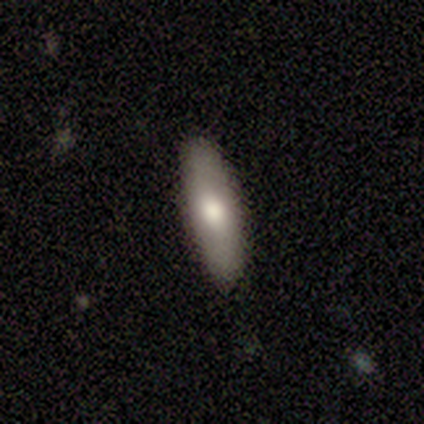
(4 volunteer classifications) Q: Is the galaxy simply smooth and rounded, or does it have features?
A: smooth — 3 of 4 (75%).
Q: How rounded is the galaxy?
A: cigar-shaped — 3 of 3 (100%).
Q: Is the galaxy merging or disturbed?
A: none — 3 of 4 (75%).